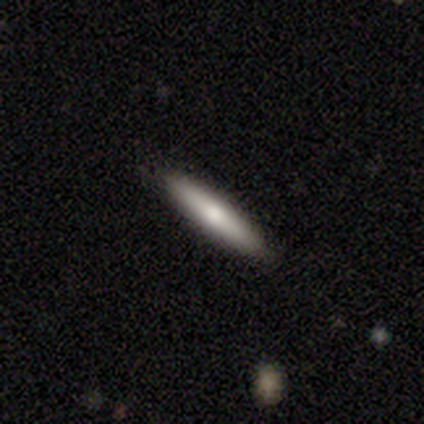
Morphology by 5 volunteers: smooth 80%, featured or disk 20%, star or artifact 0%. Down the decision tree: how rounded — cigar-shaped (75%); merging — none (100%).